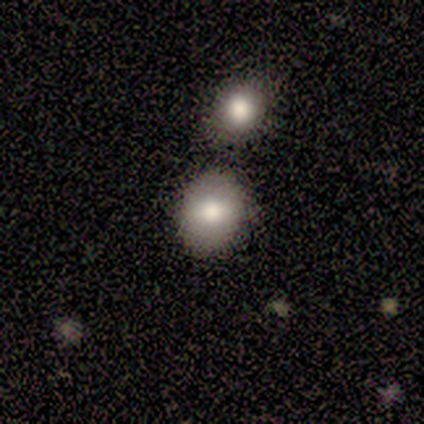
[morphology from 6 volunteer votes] Smooth or featured? smooth (83%)
How rounded? round (60%)
Merging? none (60%)